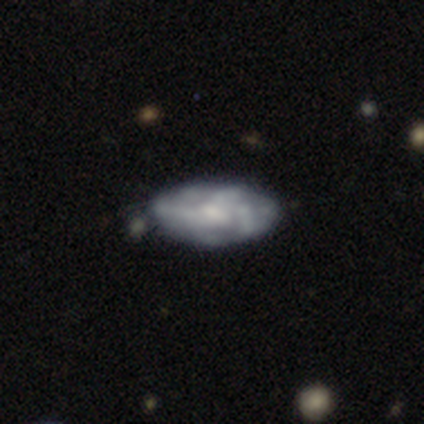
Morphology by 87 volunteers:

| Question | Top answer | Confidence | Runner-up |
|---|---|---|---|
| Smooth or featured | featured or disk | 61% | smooth (36%) |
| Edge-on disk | no | 96% | yes (4%) |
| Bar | no | 57% | weak (41%) |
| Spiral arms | no | 53% | yes (47%) |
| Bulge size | small | 39% | moderate (37%) |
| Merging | none | 61% | minor disturbance (29%) |